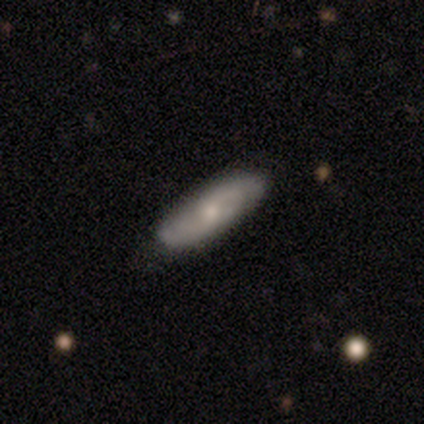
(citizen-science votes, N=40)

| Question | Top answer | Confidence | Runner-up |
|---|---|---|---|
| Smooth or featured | featured or disk | 70% | smooth (20%) |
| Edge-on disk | no | 79% | yes (21%) |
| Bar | no | 73% | weak (27%) |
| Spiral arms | yes | 77% | no (23%) |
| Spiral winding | medium | 41% | tight (29%) |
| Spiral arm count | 2 | 71% | 4 (12%) |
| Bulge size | small | 55% | moderate (36%) |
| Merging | none | 75% | minor disturbance (25%) |